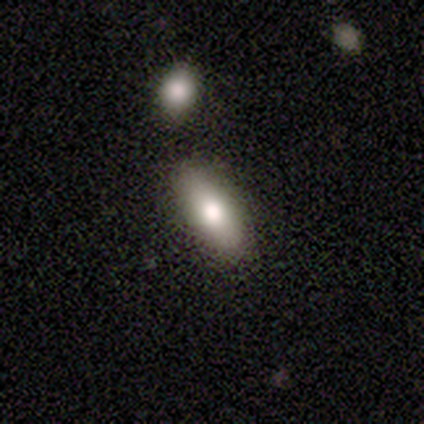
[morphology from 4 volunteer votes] Q: Smooth or featured?
A: smooth (75%); runner-up: featured or disk (25%)
Q: How rounded?
A: in between (67%); runner-up: cigar-shaped (33%)
Q: Merging?
A: none (75%); runner-up: merger (25%)